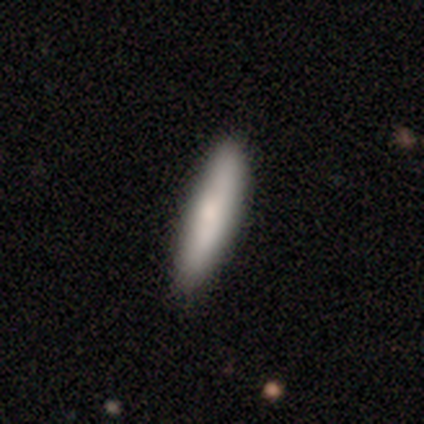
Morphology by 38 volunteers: This appears to be a smooth galaxy with no disk features (71%) that is cigar-shaped (89%). Merging: none (76%).